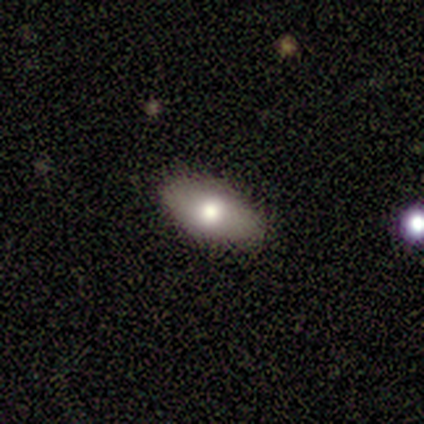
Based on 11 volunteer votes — Volunteers were most divided on "how rounded": in between: 90%, round: 10%, cigar-shaped: 0%. More confident: merging — none (100%); smooth or featured — smooth (91%).